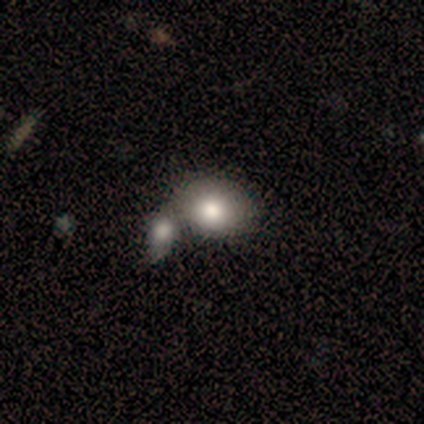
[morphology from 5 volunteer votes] Smooth or featured?
  - smooth: 100% *
  - featured or disk: 0%
  - star or artifact: 0%
How rounded?
  - in between: 100% *
  - round: 0%
  - cigar-shaped: 0%
Merging?
  - merger: 80% *
  - none: 20%
  - minor disturbance: 0%
  - major disturbance: 0%